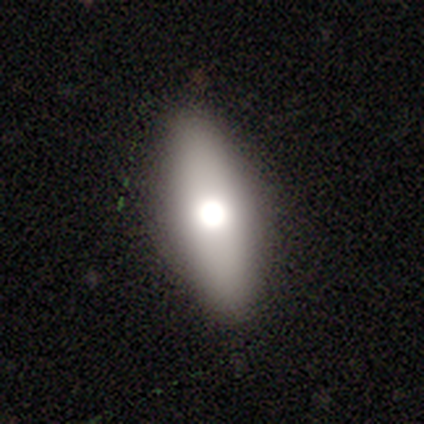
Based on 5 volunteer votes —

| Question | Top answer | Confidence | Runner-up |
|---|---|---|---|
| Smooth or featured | smooth | 60% | featured or disk (40%) |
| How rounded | in between | 100% | — |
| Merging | none | 100% | — |